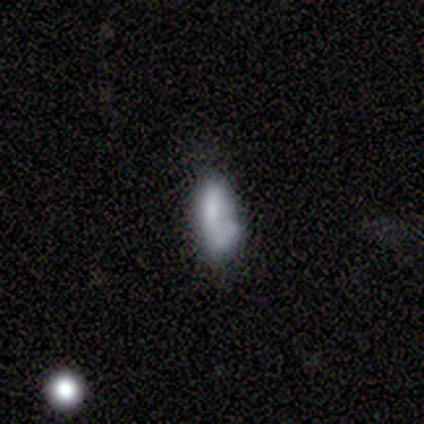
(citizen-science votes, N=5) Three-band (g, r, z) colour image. It shows a smooth galaxy with no disk features (60%) that is in between round and cigar-shaped (67%). Merging: none (40%, tied with minor disturbance).